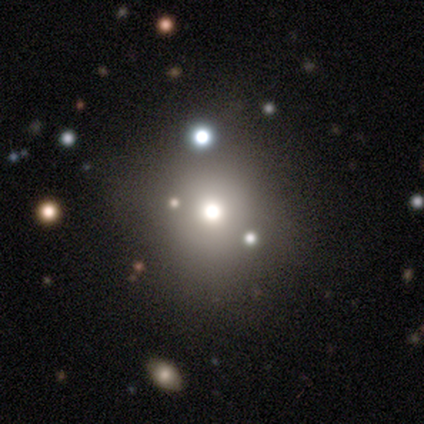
Smooth or featured? smooth (60%)
How rounded? round (100%)
Merging? none (100%)